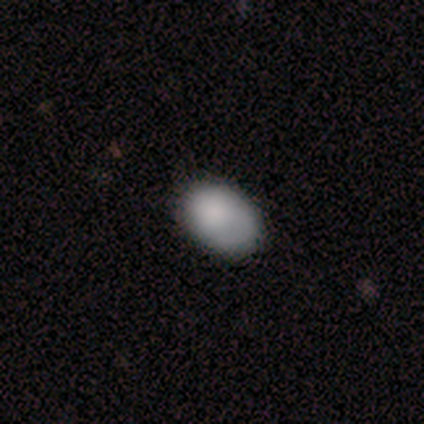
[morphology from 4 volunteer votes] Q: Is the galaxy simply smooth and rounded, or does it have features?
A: smooth — 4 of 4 (100%).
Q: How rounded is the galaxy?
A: in between — 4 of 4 (100%).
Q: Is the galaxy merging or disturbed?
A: none — 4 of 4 (100%).